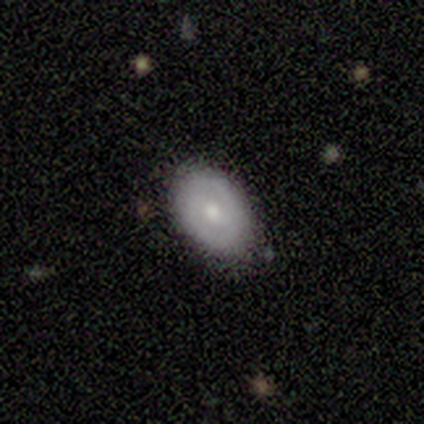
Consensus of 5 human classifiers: smooth_or_featured: featured or disk (p=0.40) [tied with: star or artifact p=0.40]
disk_edge_on: no (p=1.00)
bar: strong (p=0.50) [tied with: no p=0.50]
has_spiral_arms: yes (p=0.50) [tied with: no p=0.50]
spiral_winding: tight (p=1.00)
spiral_arm_count: 2 (p=1.00)
bulge_size: moderate (p=1.00)
merging: none (p=0.67) [alt: minor disturbance p=0.33]